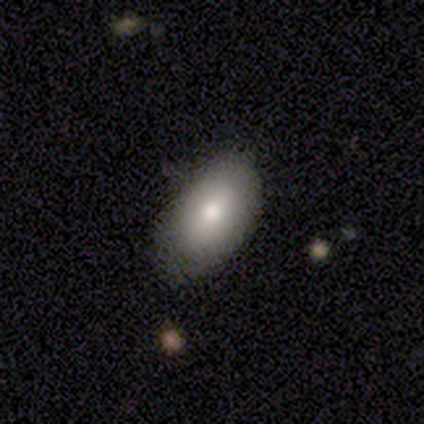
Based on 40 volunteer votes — A smooth galaxy with no disk features (80%) that is in between round and cigar-shaped (100%). Merging: none (58%).